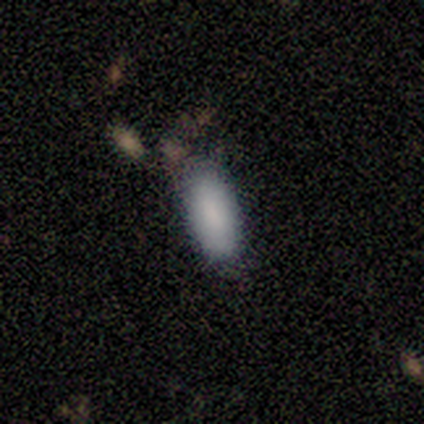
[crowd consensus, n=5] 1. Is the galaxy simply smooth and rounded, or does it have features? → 100% smooth, 0% featured or disk, 0% star or artifact.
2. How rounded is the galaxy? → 100% in between, 0% round, 0% cigar-shaped.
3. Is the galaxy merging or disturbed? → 60% none, 40% minor disturbance, 0% major disturbance, 0% merger.